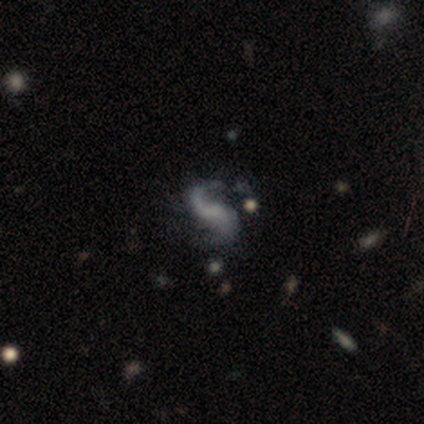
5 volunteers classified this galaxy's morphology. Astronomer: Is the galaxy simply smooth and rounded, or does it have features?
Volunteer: featured or disk — 100%.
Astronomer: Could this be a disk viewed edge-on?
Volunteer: no — 100%.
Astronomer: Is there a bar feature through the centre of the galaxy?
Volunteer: no — 60% (runner-up: weak, 40%).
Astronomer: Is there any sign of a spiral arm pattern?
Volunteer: yes — 100%.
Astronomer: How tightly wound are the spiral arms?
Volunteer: loose — 100%.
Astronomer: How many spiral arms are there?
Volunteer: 2 — 100%.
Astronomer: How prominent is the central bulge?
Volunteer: none — 100%.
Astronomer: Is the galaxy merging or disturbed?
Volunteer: none — 60%.